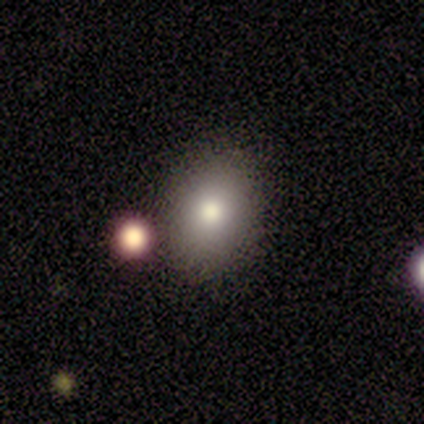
Smooth or featured: smooth — 100%
How rounded: in between — 89% (round — 11%)
Merging: none — 78% (minor disturbance — 11%)